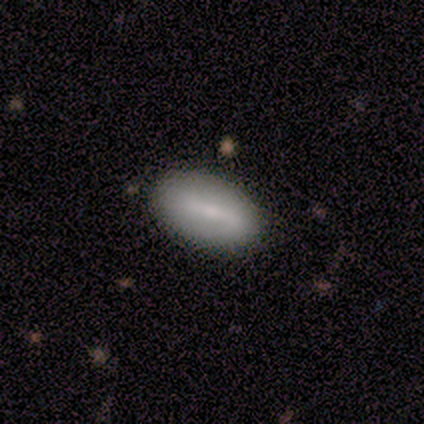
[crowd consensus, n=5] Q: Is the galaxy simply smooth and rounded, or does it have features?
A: smooth — 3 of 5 (60%).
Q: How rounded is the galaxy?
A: in between — 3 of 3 (100%).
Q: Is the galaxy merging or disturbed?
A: none — 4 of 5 (80%).